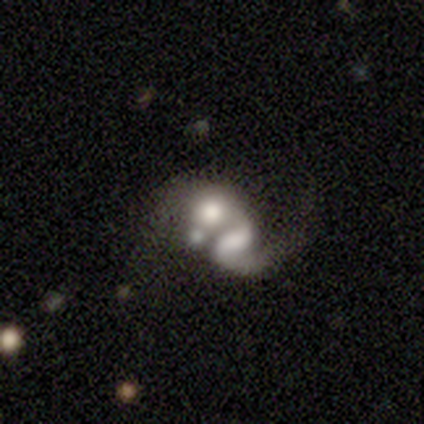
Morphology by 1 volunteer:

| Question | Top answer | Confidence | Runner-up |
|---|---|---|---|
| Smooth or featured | featured or disk | 100% | — |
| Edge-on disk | no | 100% | — |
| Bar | no | 100% | — |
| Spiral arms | yes | 100% | — |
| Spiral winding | loose | 100% | — |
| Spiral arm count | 2 | 100% | — |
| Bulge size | small | 100% | — |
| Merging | merger | 100% | — |